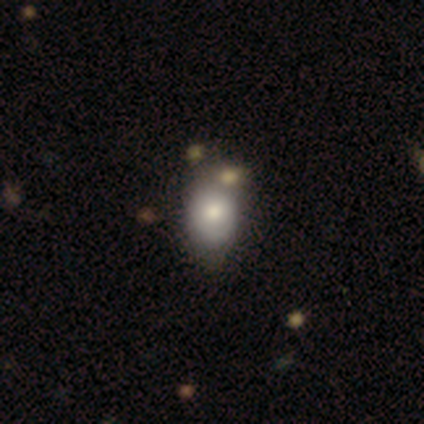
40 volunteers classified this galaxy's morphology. Smooth or featured? smooth (85%)
How rounded? in between (65%)
Merging? none (51%)